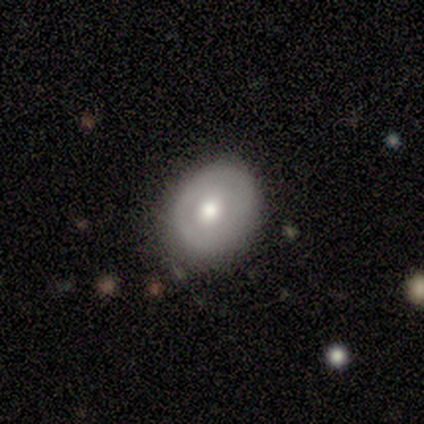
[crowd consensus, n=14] Overall: featured or disk (64%; smooth 29%). Edge-on disk: no (100%). Bar: no (100%). Spiral arms: no (67%; yes 33%). Bulge size: moderate (67%). Merging: none (77%).